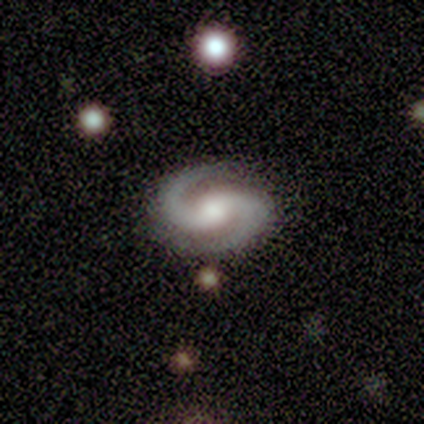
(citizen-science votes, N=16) A featured or disk galaxy (88%) with a weak bar (36%, tied with no), 2 (93%) medium (71%) spiral arms (100%) and a moderate central bulge (57%).

Vote fractions:
- Smooth or featured? featured or disk: 88% / smooth: 6% / star or artifact: 6%
- Edge-on disk? no: 100% / yes: 0%
- Bar? weak: 36% (tied) / no: 36% (tied) / strong: 29%
- Spiral arms? yes: 100% / no: 0%
- Spiral winding? medium: 71% / tight: 14% / loose: 14%
- Spiral arm count? 2: 93% / 3: 7% / 1: 0% / 4: 0% / more than 4: 0% / can't tell: 0%
- Bulge size? moderate: 57% / small: 21% / large: 14% / none: 7% / dominant: 0%
- Merging? none: 80% / minor disturbance: 13% / merger: 7% / major disturbance: 0%